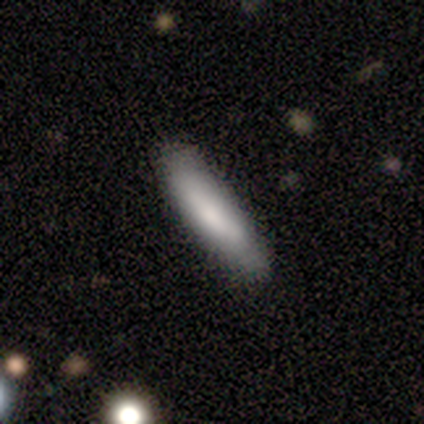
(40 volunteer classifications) Smooth or featured? 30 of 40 (75%) said smooth. How rounded? 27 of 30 (90%) said cigar-shaped. Merging? 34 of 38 (89%) said none.